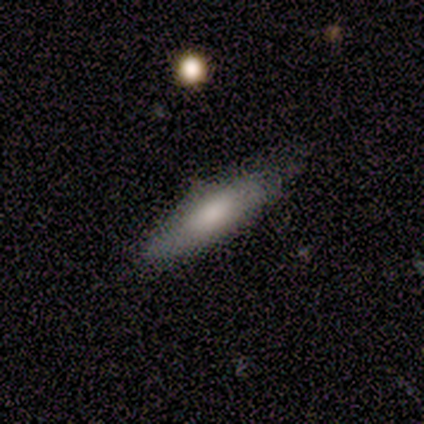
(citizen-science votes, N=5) smooth_or_featured: smooth (p=0.80) [alt: star or artifact p=0.20]
how_rounded: cigar-shaped (p=0.75) [alt: in between p=0.25]
merging: none (p=0.75) [alt: minor disturbance p=0.25]